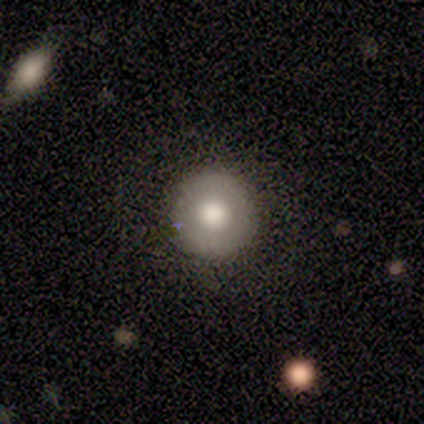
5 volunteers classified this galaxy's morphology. A smooth galaxy with no disk features (80%) that is round (100%).

Vote fractions:
- Smooth or featured? smooth: 80% / star or artifact: 20% / featured or disk: 0%
- How rounded? round: 100% / in between: 0% / cigar-shaped: 0%
- Merging? none: 100% / minor disturbance: 0% / major disturbance: 0% / merger: 0%